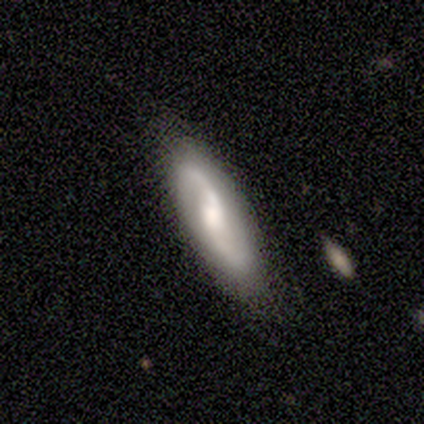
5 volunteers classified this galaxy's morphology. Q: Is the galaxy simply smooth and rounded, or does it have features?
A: featured or disk — 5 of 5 (100%).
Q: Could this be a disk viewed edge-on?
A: no — 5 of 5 (100%).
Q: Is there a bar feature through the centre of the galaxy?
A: no — 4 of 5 (80%).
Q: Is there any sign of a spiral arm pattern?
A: yes — 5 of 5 (100%).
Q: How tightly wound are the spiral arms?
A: loose — 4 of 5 (80%).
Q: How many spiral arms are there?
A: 2 — 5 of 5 (100%).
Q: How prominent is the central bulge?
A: moderate — 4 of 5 (80%).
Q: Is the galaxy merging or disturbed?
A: none — 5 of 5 (100%).